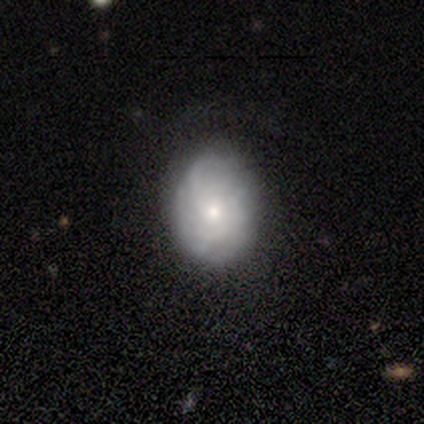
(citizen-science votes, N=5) smooth_or_featured: featured or disk (p=0.60) [alt: smooth p=0.20]
disk_edge_on: no (p=1.00)
bar: no (p=1.00)
has_spiral_arms: yes (p=0.67) [alt: no p=0.33]
spiral_winding: tight (p=1.00)
spiral_arm_count: can't tell (p=1.00)
bulge_size: small (p=1.00)
merging: none (p=0.75) [alt: minor disturbance p=0.25]